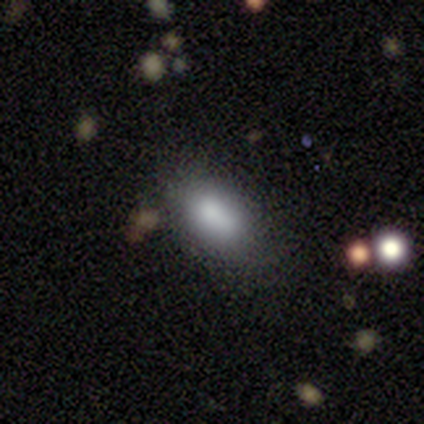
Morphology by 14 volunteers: Smooth or featured? 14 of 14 (100%) said smooth. How rounded? 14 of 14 (100%) said in between. Merging? 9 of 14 (64%) said none.